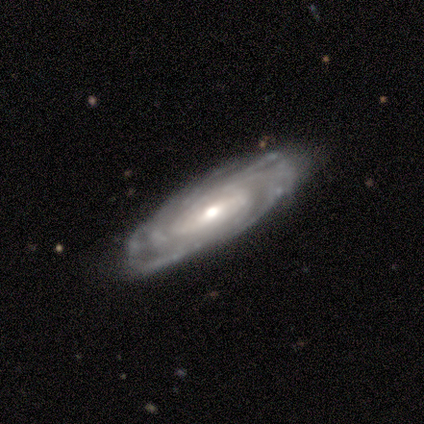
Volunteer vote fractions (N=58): A featured or disk galaxy (88%) with no bar (53%), tight (93%) spiral arms (89%) and a moderate central bulge (62%).

Vote fractions:
- Smooth or featured? featured or disk: 88% / smooth: 9% / star or artifact: 3%
- Edge-on disk? no: 92% / yes: 8%
- Bar? no: 53% / weak: 32% / strong: 15%
- Spiral arms? yes: 89% / no: 11%
- Spiral winding? tight: 93% / medium: 7% / loose: 0%
- Spiral arm count? can't tell: 48% / more than 4: 33% / 4: 10% / 3: 7% / 2: 2% / 1: 0%
- Bulge size? moderate: 62% / small: 17% / large: 15% / dominant: 6% / none: 0%
- Merging? none: 73% / minor disturbance: 23% / major disturbance: 4% / merger: 0%